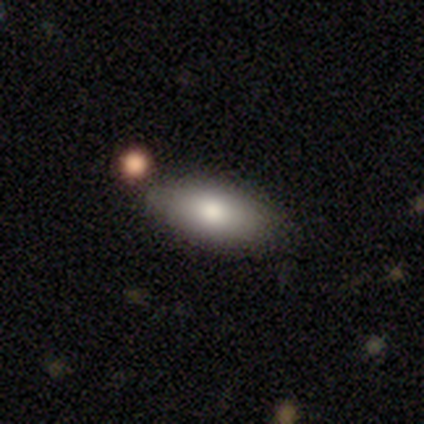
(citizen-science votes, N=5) Overall: smooth (80%). How rounded: in between (100%). Merging: none (60%; minor disturbance 20%).